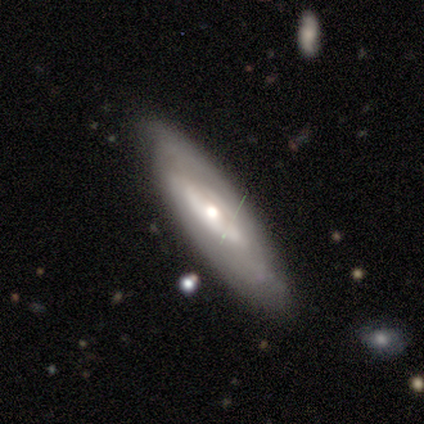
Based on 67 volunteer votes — featured or disk 61%, smooth 30%, star or artifact 9%. Down the decision tree: edge-on disk — no (73%); bar — no (83%); spiral arms — yes (57%); spiral arm count — can't tell (82%); spiral winding — tight (65%); bulge size — moderate (73%); merging — none (39%).